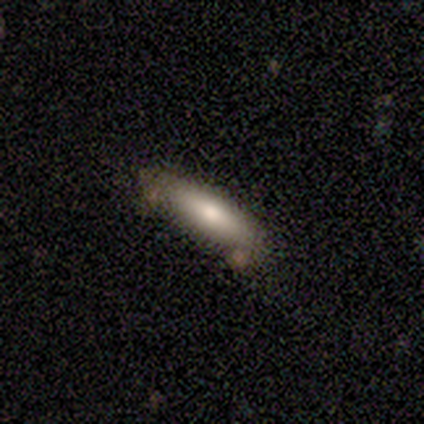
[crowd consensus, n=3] Overall: smooth (100%). How rounded: in between (100%). Merging: none (67%; merger 33%).